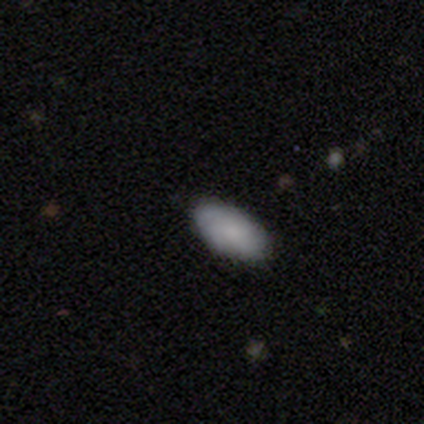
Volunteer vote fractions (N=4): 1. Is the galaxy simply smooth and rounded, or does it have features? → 100% smooth, 0% featured or disk, 0% star or artifact.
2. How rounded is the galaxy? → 100% in between, 0% round, 0% cigar-shaped.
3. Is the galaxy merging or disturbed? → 100% none, 0% minor disturbance, 0% major disturbance, 0% merger.